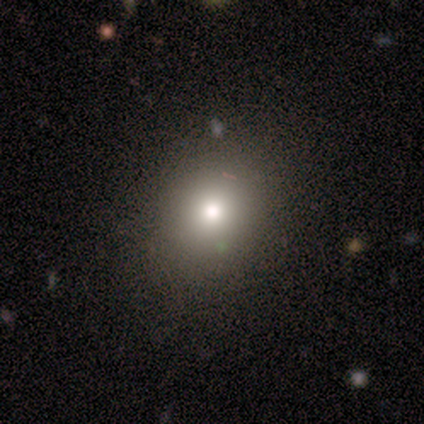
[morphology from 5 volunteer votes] type=smooth (60%); roundness=round (100%); merging=none (100%).